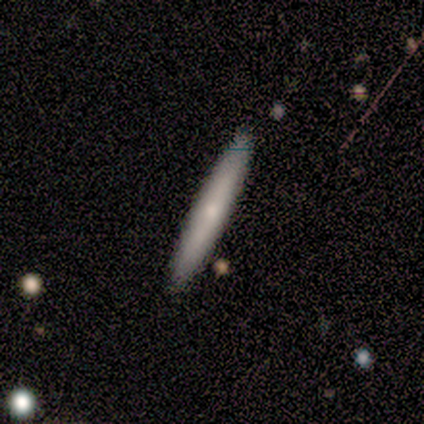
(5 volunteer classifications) Overall: smooth (60%; featured or disk 40%). How rounded: cigar-shaped (100%). Merging: none (100%).